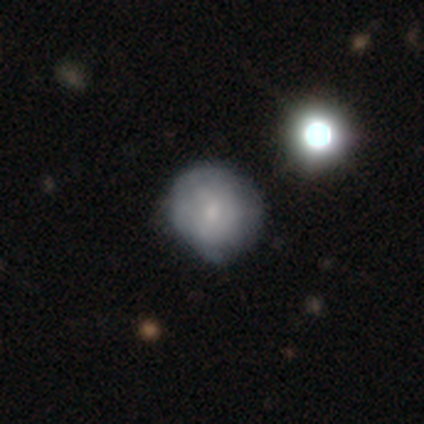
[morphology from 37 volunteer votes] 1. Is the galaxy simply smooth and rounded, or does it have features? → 51% smooth, 35% featured or disk, 14% star or artifact.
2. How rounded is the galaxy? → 89% round, 11% in between, 0% cigar-shaped.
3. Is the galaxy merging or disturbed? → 47% none, 16% minor disturbance, 9% merger, 3% major disturbance.